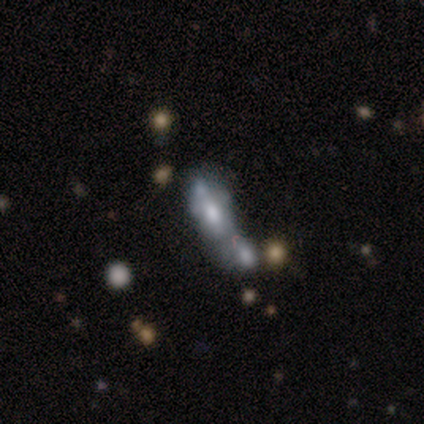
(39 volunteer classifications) This appears to be a smooth galaxy with no disk features (54%) that is in between round and cigar-shaped (62%). Merging: merger (71%).